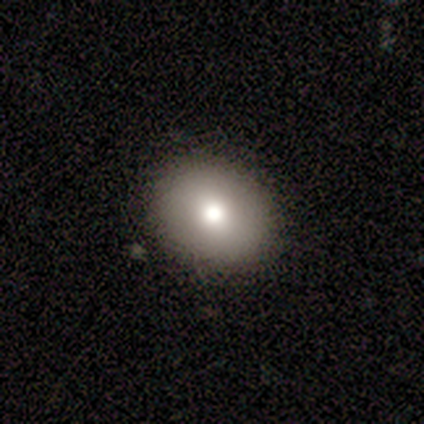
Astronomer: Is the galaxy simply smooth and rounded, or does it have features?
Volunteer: smooth — 67%.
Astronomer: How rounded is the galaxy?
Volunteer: in between — 100%.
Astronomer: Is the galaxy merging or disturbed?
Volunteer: none — 100%.